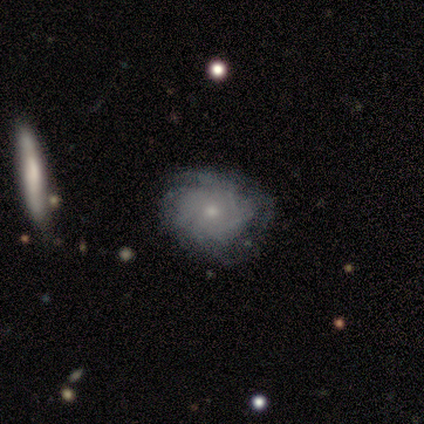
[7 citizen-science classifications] This appears to be a featured or disk galaxy (86%) with no bar (100%), medium (50%) spiral arms (100%) and a small central bulge (75%). Merging: none (43%).